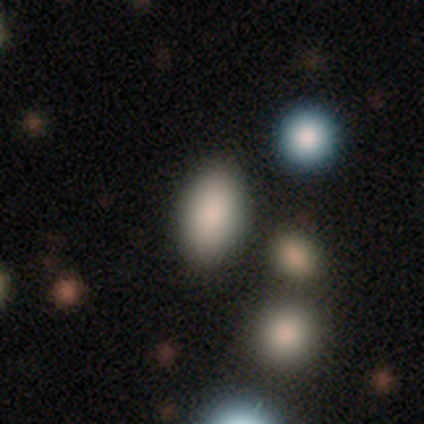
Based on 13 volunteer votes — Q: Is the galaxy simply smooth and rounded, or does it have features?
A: smooth — 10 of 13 (77%).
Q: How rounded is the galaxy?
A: in between — 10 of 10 (100%).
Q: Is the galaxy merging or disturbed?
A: none — 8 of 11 (73%).